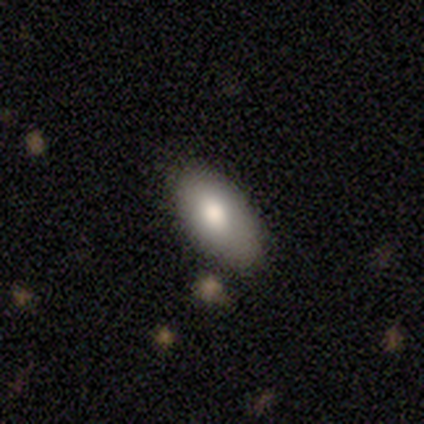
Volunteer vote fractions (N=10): Volunteers were most divided on "merging": none: 67%, minor disturbance: 22%, merger: 11%, major disturbance: 0%. More confident: smooth or featured — smooth (90%); how rounded — in between (89%).